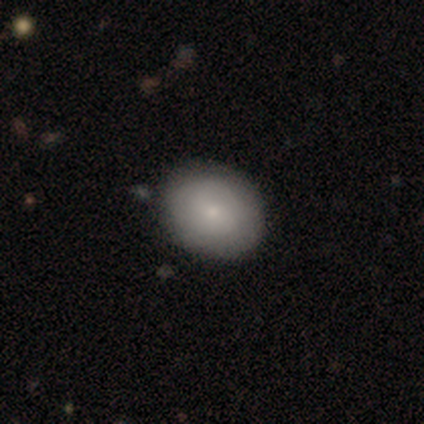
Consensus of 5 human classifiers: smooth 60%, featured or disk 20%, star or artifact 20%. Down the decision tree: how rounded — round (67%); merging — none (75%).